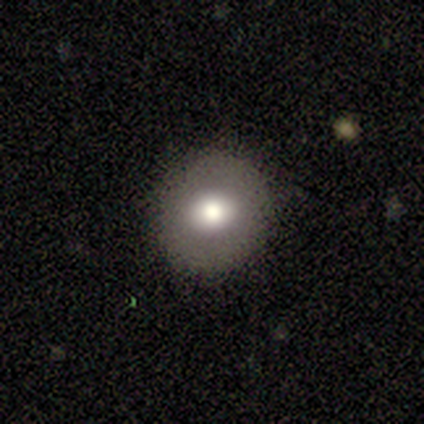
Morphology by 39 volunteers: smooth_or_featured: smooth (p=0.74) [alt: featured or disk p=0.21]
how_rounded: round (p=0.76) [alt: in between p=0.24]
merging: none (p=0.84) [alt: minor disturbance p=0.11]